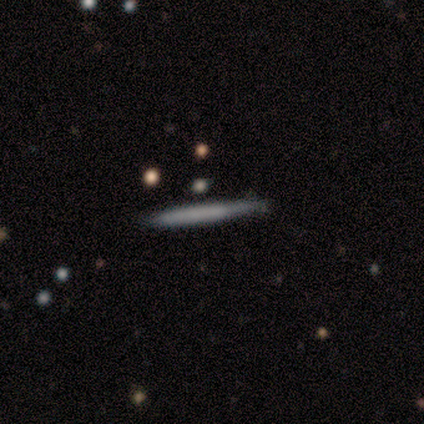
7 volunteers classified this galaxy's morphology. Smooth or featured: smooth — 43% (tied with featured or disk — 43%)
How rounded: cigar-shaped — 100%
Merging: none — 100%